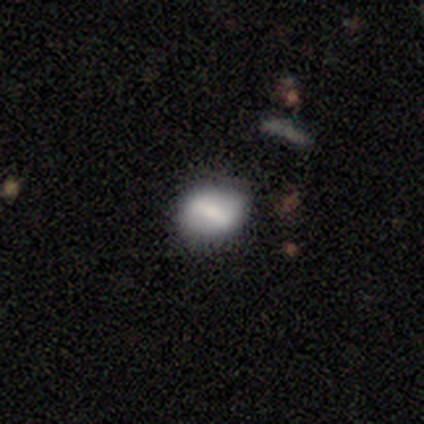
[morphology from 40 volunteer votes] Smooth or featured?
  - smooth: 50% *
  - featured or disk: 35%
  - star or artifact: 15%
How rounded?
  - round: 50% * (tied)
  - in between: 50% * (tied)
  - cigar-shaped: 0%
Merging?
  - none: 74% *
  - minor disturbance: 24%
  - major disturbance: 3%
  - merger: 0%